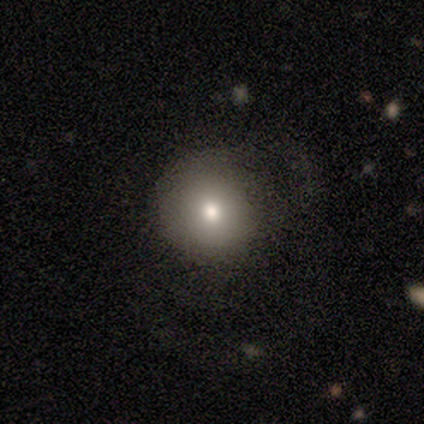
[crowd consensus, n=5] smooth_or_featured: smooth (p=0.60) [alt: featured or disk p=0.40]
how_rounded: round (p=1.00)
merging: none (p=0.80) [alt: minor disturbance p=0.20]